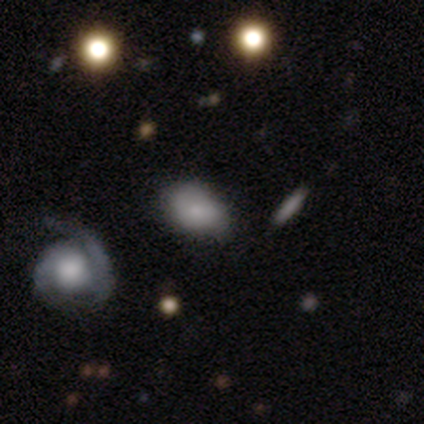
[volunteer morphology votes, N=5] Smooth or featured? 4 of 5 (80%) said smooth. How rounded? 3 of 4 (75%) said in between. Merging? 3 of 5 (60%) said none.